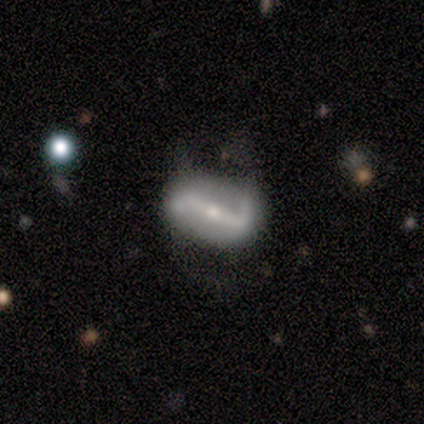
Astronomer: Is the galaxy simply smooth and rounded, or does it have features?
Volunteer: featured or disk — 100%.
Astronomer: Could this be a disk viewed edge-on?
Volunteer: no — 100%.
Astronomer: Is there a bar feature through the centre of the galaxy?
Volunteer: strong — 80%.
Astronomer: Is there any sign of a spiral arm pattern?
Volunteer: yes — 100%.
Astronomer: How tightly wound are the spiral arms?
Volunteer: loose — 80%.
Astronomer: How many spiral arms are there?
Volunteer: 2 — 100%.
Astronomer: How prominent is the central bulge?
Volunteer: small — 100%.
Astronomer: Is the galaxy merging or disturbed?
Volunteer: none — 60%.